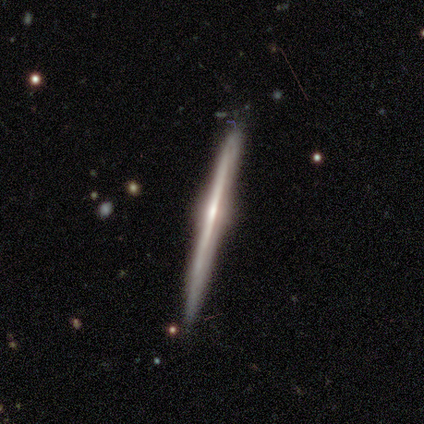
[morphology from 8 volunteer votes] Smooth or featured?
  - featured or disk: 88% *
  - smooth: 12%
  - star or artifact: 0%
Edge-on disk?
  - yes: 100% *
  - no: 0%
Edge-on bulge?
  - rounded: 71% *
  - none: 29%
  - boxy: 0%
Merging?
  - none: 75% *
  - minor disturbance: 25%
  - major disturbance: 0%
  - merger: 0%